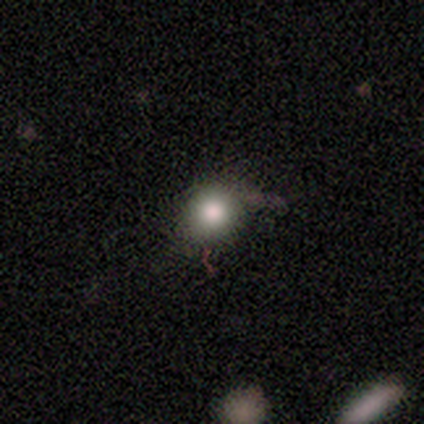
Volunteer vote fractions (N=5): A smooth galaxy with no disk features (40%, tied with star or artifact) that is round (100%). Merging: none (100%).